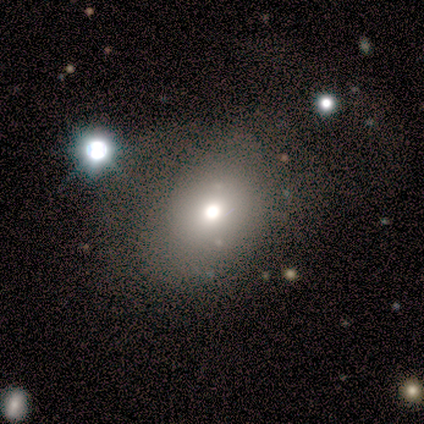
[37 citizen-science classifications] This appears to be a smooth galaxy with no disk features (81%) that is in between round and cigar-shaped (57%). Merging: none (62%).